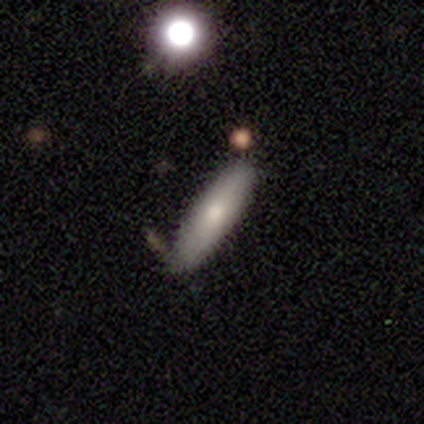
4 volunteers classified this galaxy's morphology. smooth 75%, featured or disk 25%, star or artifact 0%. Down the decision tree: how rounded — cigar-shaped (67%); merging — none (100%).